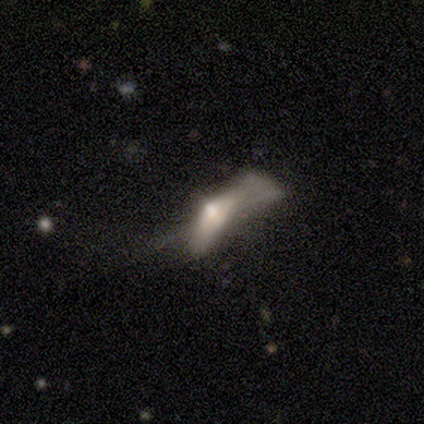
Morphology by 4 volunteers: This is clearly a featured or disk galaxy (100%). It is possibly viewed edge-on (50%, tied with no). Edge-on bulge: clearly rounded (100%). Merging: likely major disturbance (75%).